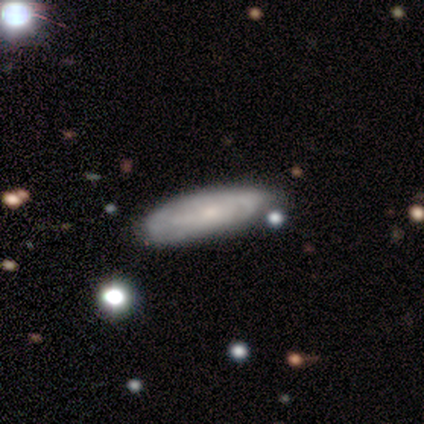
This is possibly a featured or disk galaxy (55%). It is likely not viewed edge-on (64%). Bar: clearly no (86%). Spiral arm pattern: likely yes (71%). Spiral arm count: clearly can't tell (90%). Spiral winding: likely tight (70%). Central bulge: likely small (71%). Merging: clearly none (82%).